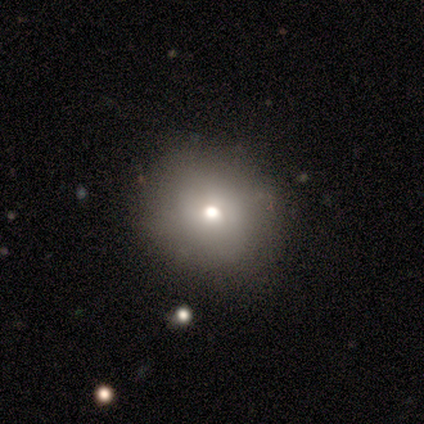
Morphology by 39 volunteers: Smooth or featured? 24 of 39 (62%) said smooth. How rounded? 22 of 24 (92%) said round. Merging? 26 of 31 (84%) said none.